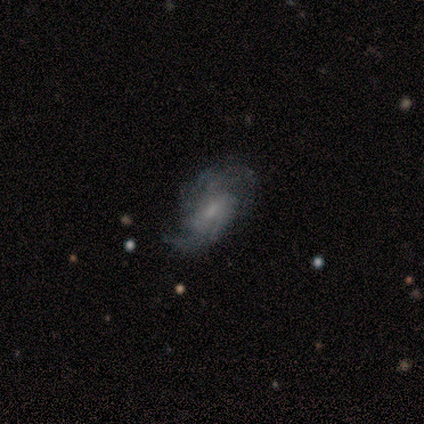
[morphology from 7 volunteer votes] A featured or disk galaxy (100%) with a weak bar (67%), 2 (67%) medium (50%) spiral arms (100%) and a moderate central bulge (50%, tied with small). Merging: none (71%).